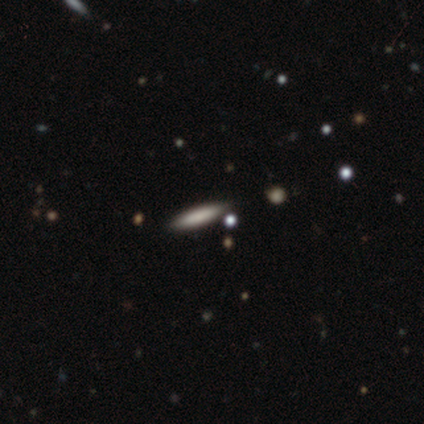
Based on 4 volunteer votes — smooth 50% (tied), star or artifact 50% (tied), featured or disk 0%. Down the decision tree: how rounded — cigar-shaped (100%); merging — none (100%).